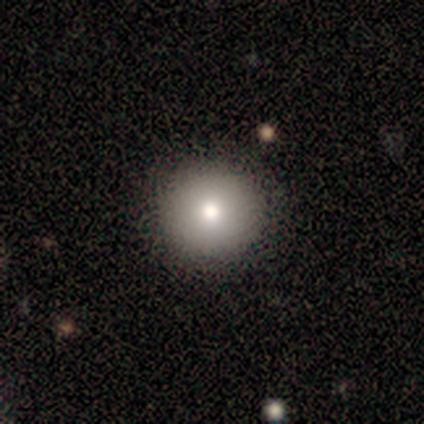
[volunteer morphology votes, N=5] Q: Smooth or featured?
A: smooth (60%); runner-up: featured or disk (40%)
Q: How rounded?
A: round (100%)
Q: Merging?
A: none (80%); runner-up: minor disturbance (20%)